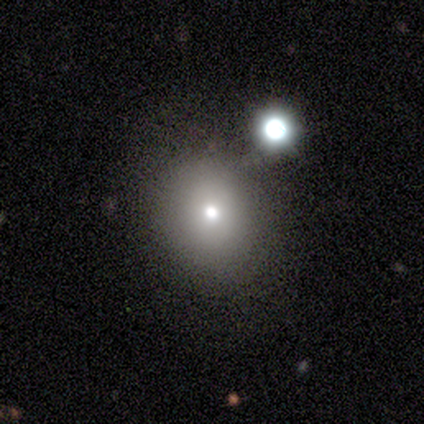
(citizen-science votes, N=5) Morphology: type=smooth (80%); roundness=round (100%); merging=none (100%).